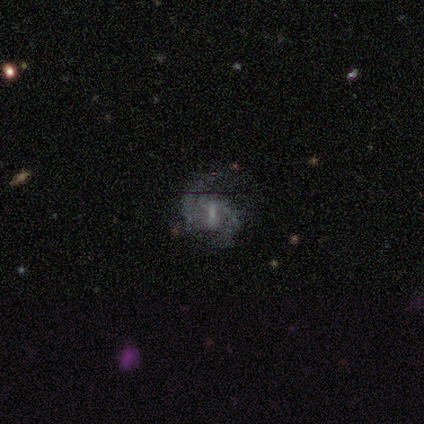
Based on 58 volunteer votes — Smooth or featured?
  - featured or disk: 88% *
  - smooth: 7%
  - star or artifact: 5%
Edge-on disk?
  - no: 100% *
  - yes: 0%
Bar?
  - strong: 43% * (tied)
  - weak: 43% * (tied)
  - no: 14%
Spiral arms?
  - yes: 94% *
  - no: 6%
Spiral winding?
  - medium: 65% *
  - tight: 21%
  - loose: 15%
Spiral arm count?
  - 2: 81% *
  - can't tell: 10%
  - 3: 6%
  - 1: 2%
  - 4: 0%
  - more than 4: 0%
Bulge size?
  - none: 41% *
  - small: 37%
  - moderate: 16%
  - large: 4%
  - dominant: 2%
Merging?
  - none: 60% *
  - minor disturbance: 20%
  - major disturbance: 18%
  - merger: 2%